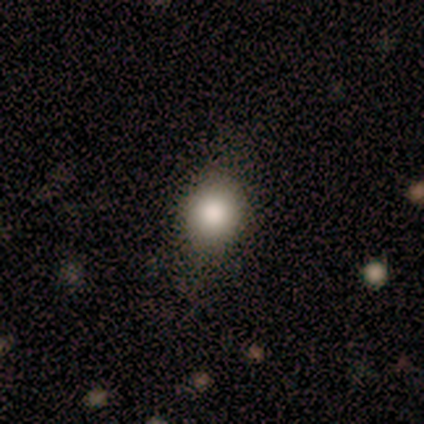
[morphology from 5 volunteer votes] type=smooth (80%); roundness=round (50%, tied with in between); merging=none (80%).